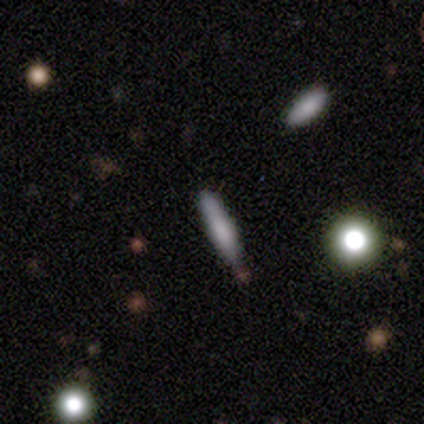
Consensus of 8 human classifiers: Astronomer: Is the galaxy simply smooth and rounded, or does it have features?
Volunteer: smooth — 62%.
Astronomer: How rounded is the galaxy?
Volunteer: cigar-shaped — 100%.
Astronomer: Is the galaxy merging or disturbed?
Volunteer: none — 67%.